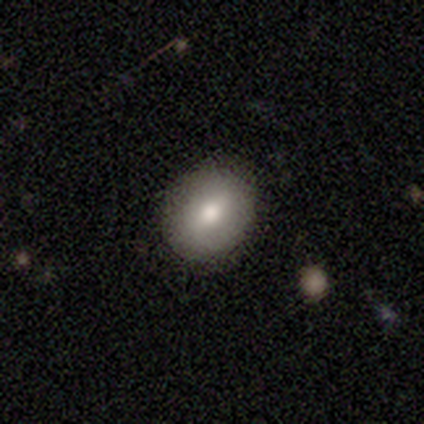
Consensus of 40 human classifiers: Smooth or featured?
  - smooth: 75% *
  - featured or disk: 22%
  - star or artifact: 2%
How rounded?
  - in between: 53% *
  - round: 47%
  - cigar-shaped: 0%
Merging?
  - none: 92% *
  - minor disturbance: 5%
  - major disturbance: 3%
  - merger: 0%